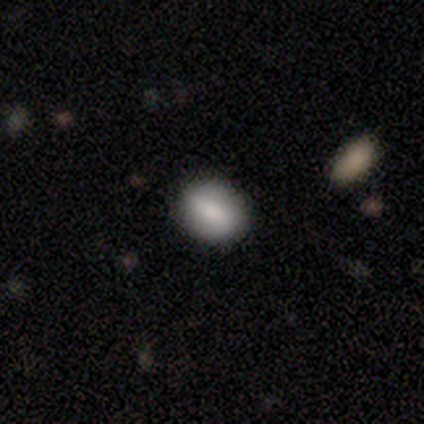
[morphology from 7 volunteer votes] This is possibly a smooth galaxy (57%). How rounded: likely in between (75%). Merging: clearly none (83%).